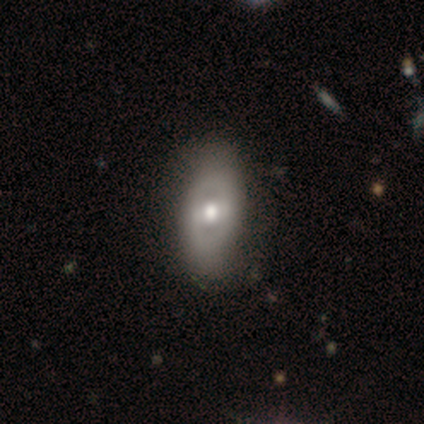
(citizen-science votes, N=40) Smooth or featured? featured or disk (62%)
Edge-on disk? no (96%)
Bar? weak (50%)
Spiral arms? no (83%)
Bulge size? moderate (83%)
Merging? none (69%)